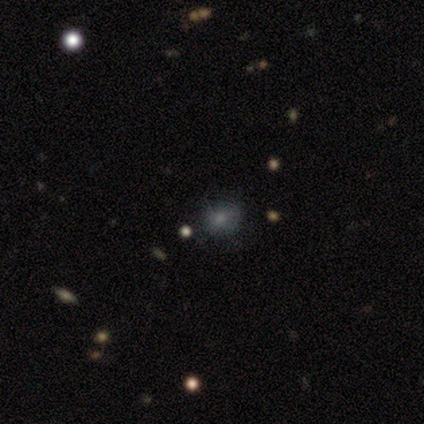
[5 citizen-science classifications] smooth 100%, featured or disk 0%, star or artifact 0%. Down the decision tree: how rounded — round (60%); merging — none (60%).